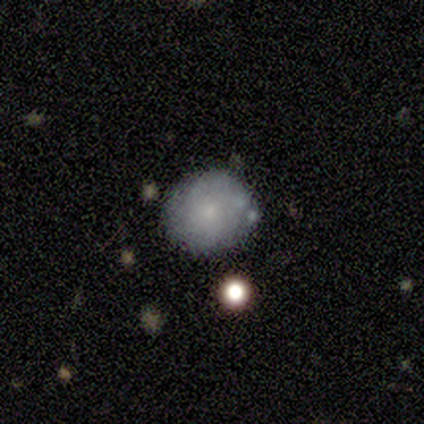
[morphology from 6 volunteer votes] smooth 50%, featured or disk 33%, star or artifact 17%. Down the decision tree: how rounded — round (67%); merging — none (80%).